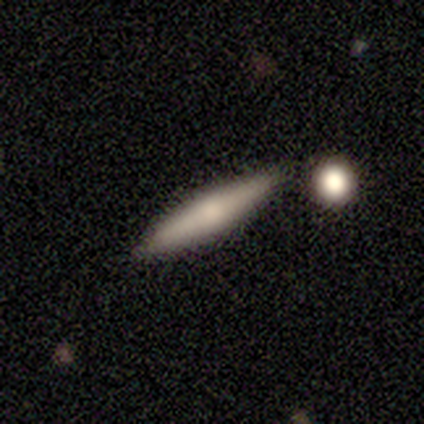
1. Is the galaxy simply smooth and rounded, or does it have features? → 60% smooth, 40% featured or disk, 0% star or artifact.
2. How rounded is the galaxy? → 100% cigar-shaped, 0% round, 0% in between.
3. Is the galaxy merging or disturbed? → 40% none (tied), 40% merger (tied), 20% minor disturbance, 0% major disturbance.